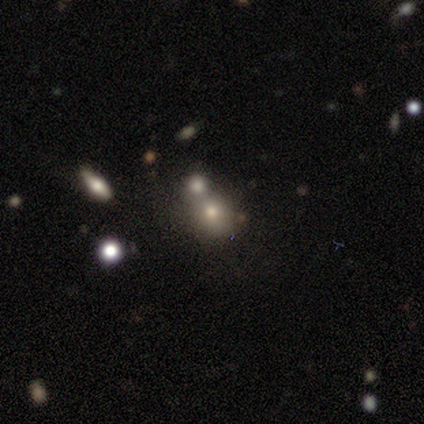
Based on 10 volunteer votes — Overall: smooth (60%; featured or disk 20%). How rounded: round (83%). Merging: none (50%, tied with merger).